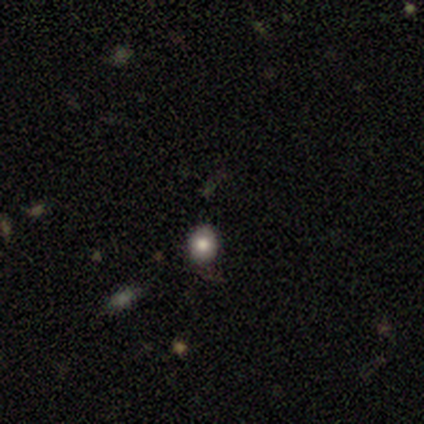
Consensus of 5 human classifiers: star or artifact 60%, smooth 40%, featured or disk 0%.